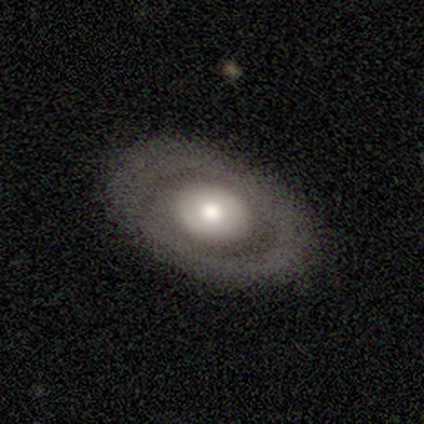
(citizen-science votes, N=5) Smooth or featured? 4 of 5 (80%) said smooth. How rounded? 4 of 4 (100%) said in between. Merging? 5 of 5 (100%) said none.